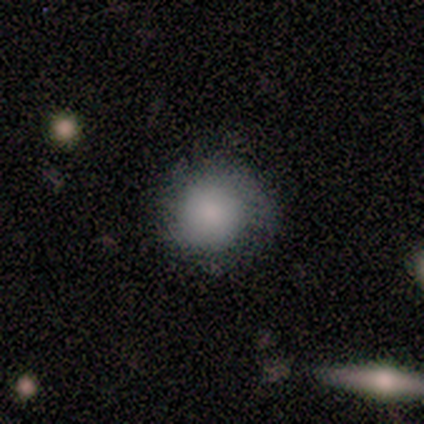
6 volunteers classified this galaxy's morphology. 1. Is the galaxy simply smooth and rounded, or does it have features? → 50% smooth, 33% featured or disk, 17% star or artifact.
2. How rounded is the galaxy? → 100% round, 0% in between, 0% cigar-shaped.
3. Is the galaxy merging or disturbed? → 60% none, 40% minor disturbance, 0% major disturbance, 0% merger.